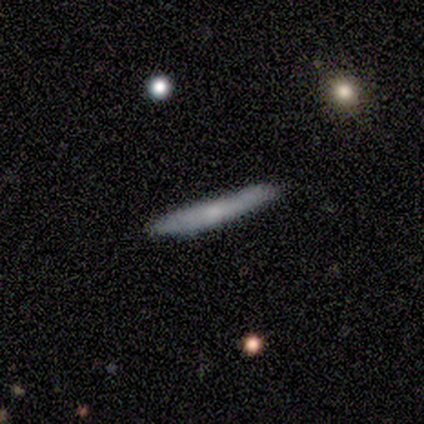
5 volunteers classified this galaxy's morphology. Smooth or featured?
  - smooth: 80% *
  - featured or disk: 20%
  - star or artifact: 0%
How rounded?
  - cigar-shaped: 100% *
  - round: 0%
  - in between: 0%
Merging?
  - none: 60% *
  - minor disturbance: 40%
  - major disturbance: 0%
  - merger: 0%